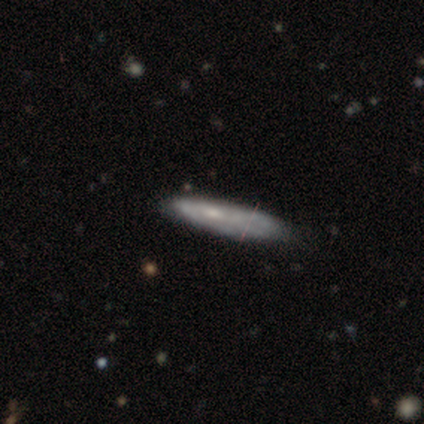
Smooth or featured? 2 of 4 (50%, tied with featured or disk) said smooth. How rounded? 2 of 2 (100%) said cigar-shaped. Merging? 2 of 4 (50%, tied with minor disturbance) said none.